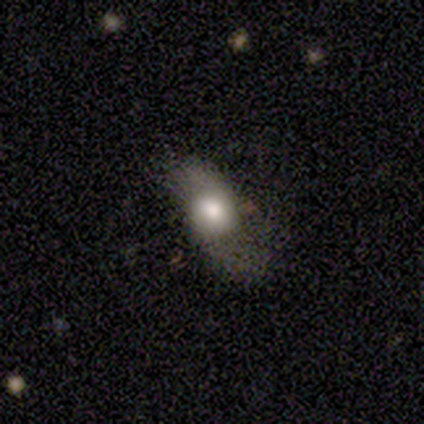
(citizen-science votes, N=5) A smooth galaxy with no disk features (60%) that is in between round and cigar-shaped (67%).

Vote fractions:
- Smooth or featured? smooth: 60% / featured or disk: 40% / star or artifact: 0%
- How rounded? in between: 67% / round: 33% / cigar-shaped: 0%
- Merging? none: 40% (tied) / major disturbance: 40% (tied) / minor disturbance: 20% / merger: 0%